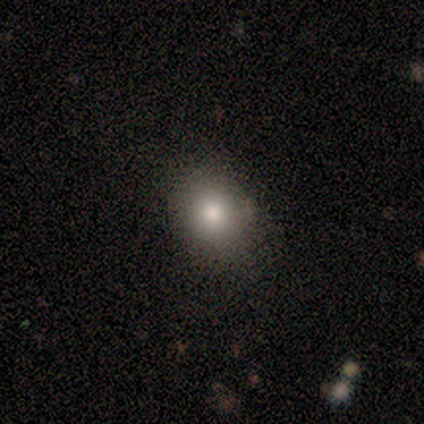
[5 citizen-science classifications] smooth 60%, featured or disk 20%, star or artifact 20%. Down the decision tree: how rounded — round (100%); merging — none (100%).